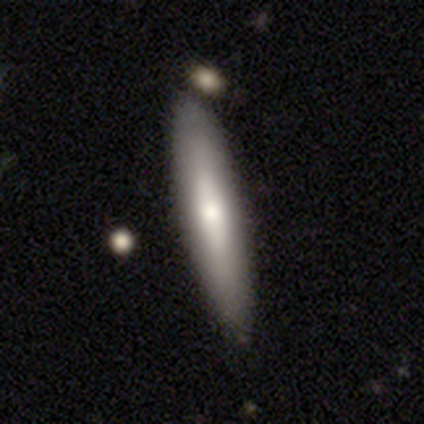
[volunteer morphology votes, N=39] Overall: smooth (64%; featured or disk 33%). How rounded: cigar-shaped (80%). Merging: none (87%).